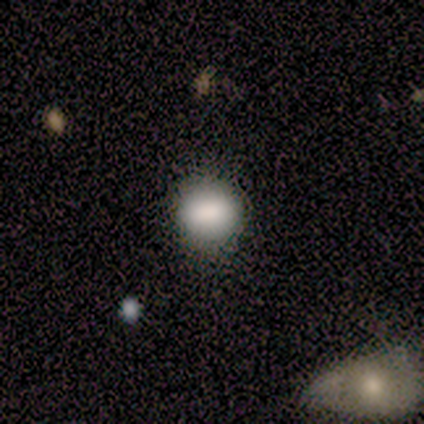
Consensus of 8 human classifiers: A smooth galaxy with no disk features (88%) that is round (71%).

Vote fractions:
- Smooth or featured? smooth: 88% / featured or disk: 12% / star or artifact: 0%
- How rounded? round: 71% / in between: 29% / cigar-shaped: 0%
- Merging? none: 62% / minor disturbance: 12% / major disturbance: 12% / merger: 12%